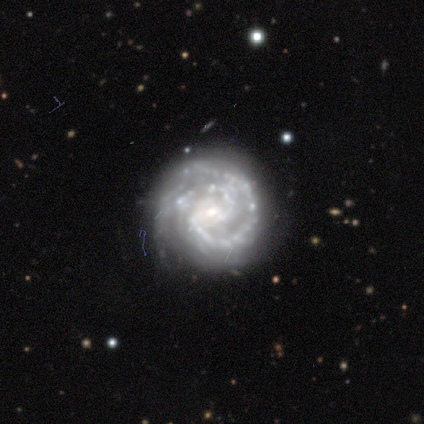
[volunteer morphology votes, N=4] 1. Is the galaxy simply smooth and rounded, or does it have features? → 100% featured or disk, 0% smooth, 0% star or artifact.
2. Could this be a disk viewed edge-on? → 75% no, 25% yes.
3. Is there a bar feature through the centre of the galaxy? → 100% no, 0% strong, 0% weak.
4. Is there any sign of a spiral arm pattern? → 100% yes, 0% no.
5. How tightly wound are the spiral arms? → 100% tight, 0% medium, 0% loose.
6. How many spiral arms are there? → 100% 2, 0% 1, 0% 3, 0% 4, 0% more than 4, 0% can't tell.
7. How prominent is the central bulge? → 67% small, 33% none, 0% dominant, 0% large, 0% moderate.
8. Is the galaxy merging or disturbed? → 100% none, 0% minor disturbance, 0% major disturbance, 0% merger.